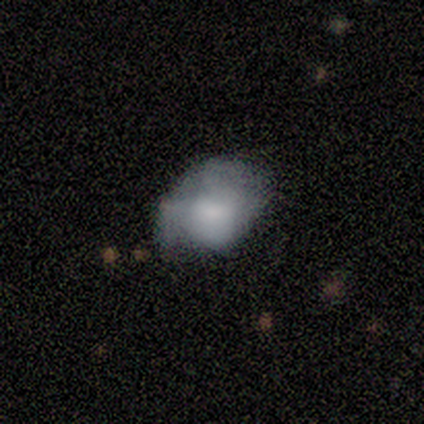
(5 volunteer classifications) Smooth or featured? smooth (40%, tied with featured or disk)
How rounded? round (50%, tied with in between)
Merging? none (25%, tied with minor disturbance, major disturbance and merger)